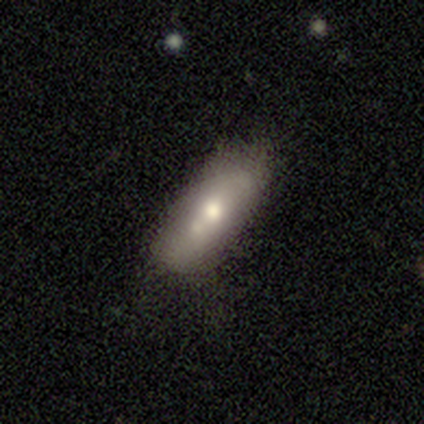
Morphology: type=smooth (63%); roundness=in between (75%); merging=none (53%).